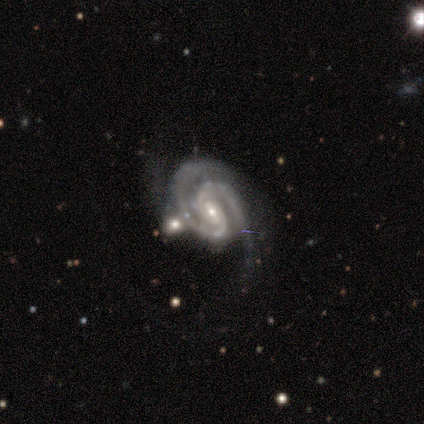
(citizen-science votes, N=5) Smooth or featured: featured or disk — 100%
Edge-on disk: no — 100%
Bar: strong — 40% (tied with weak — 40%)
Spiral arms: yes — 100%
Spiral winding: tight — 60% (medium — 40%)
Spiral arm count: 2 — 80% (3 — 20%)
Bulge size: small — 80% (moderate — 20%)
Merging: none — 40% (tied with minor disturbance — 40%)